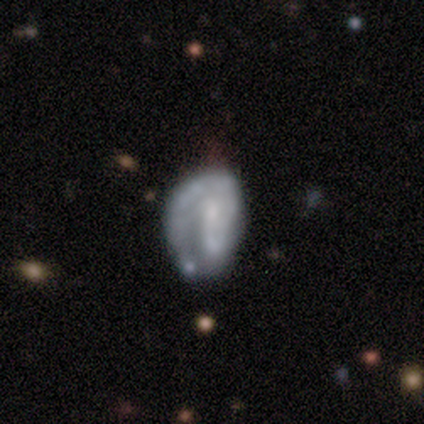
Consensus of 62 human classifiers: smooth_or_featured: featured or disk (p=0.69) [alt: smooth p=0.27]
disk_edge_on: no (p=1.00)
bar: no (p=0.65) [alt: weak p=0.28]
has_spiral_arms: yes (p=0.70) [alt: no p=0.30]
spiral_winding: tight (p=0.73) [alt: medium p=0.17]
spiral_arm_count: 1 (p=0.50) [alt: 2 p=0.40]
bulge_size: small (p=0.44) [alt: none p=0.30]
merging: none (p=0.43) [alt: minor disturbance p=0.25]